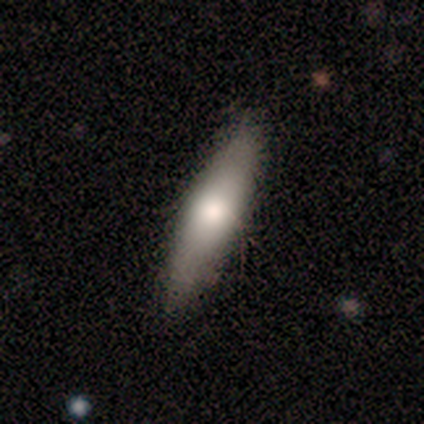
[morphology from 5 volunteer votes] Smooth or featured? smooth (80%)
How rounded? cigar-shaped (75%)
Merging? none (60%)